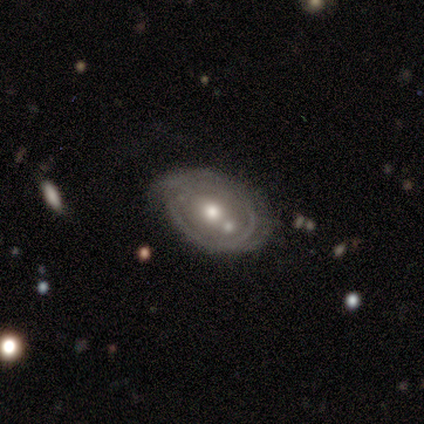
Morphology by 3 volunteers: A featured or disk galaxy (67%) with no bar (100%), 2 (100%) tight (50%, tied with medium) spiral arms (100%) and a moderate central bulge (100%). Merging: none (67%).